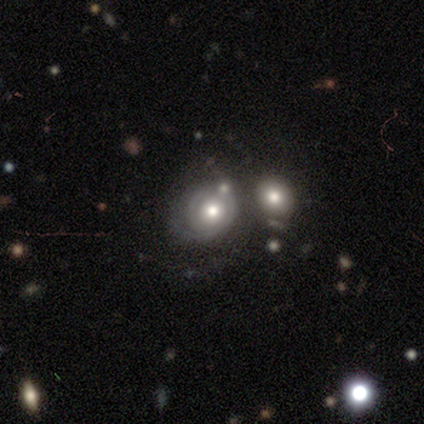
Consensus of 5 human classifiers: Smooth or featured?
  - featured or disk: 100% *
  - smooth: 0%
  - star or artifact: 0%
Edge-on disk?
  - no: 100% *
  - yes: 0%
Bar?
  - no: 100% *
  - strong: 0%
  - weak: 0%
Spiral arms?
  - yes: 100% *
  - no: 0%
Spiral winding?
  - tight: 60% *
  - medium: 20%
  - loose: 20%
Spiral arm count?
  - can't tell: 80% *
  - 1: 20%
  - 2: 0%
  - 3: 0%
  - 4: 0%
  - more than 4: 0%
Bulge size?
  - moderate: 100% *
  - dominant: 0%
  - large: 0%
  - small: 0%
  - none: 0%
Merging?
  - none: 40% * (tied)
  - minor disturbance: 40% * (tied)
  - merger: 20%
  - major disturbance: 0%